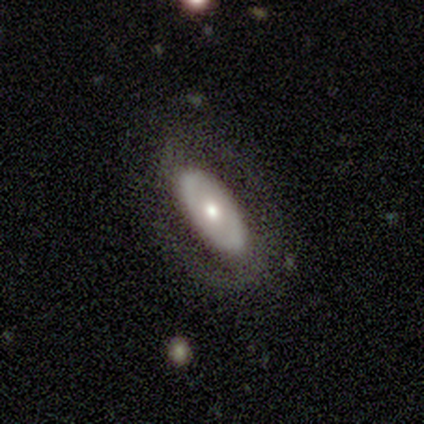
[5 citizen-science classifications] Smooth or featured? 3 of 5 (60%) said featured or disk. Edge-on disk? 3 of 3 (100%) said no. Bar? 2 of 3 (67%) said no. Spiral arms? 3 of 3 (100%) said no. Bulge size? 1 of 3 (33%, tied with moderate and small) said large. Merging? 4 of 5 (80%) said none.